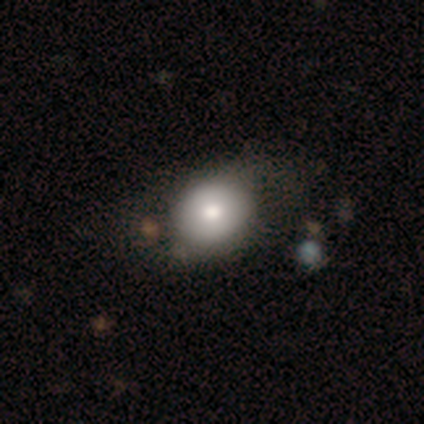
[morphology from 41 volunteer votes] Overall: smooth (76%). How rounded: round (61%; in between 39%). Merging: none (62%).